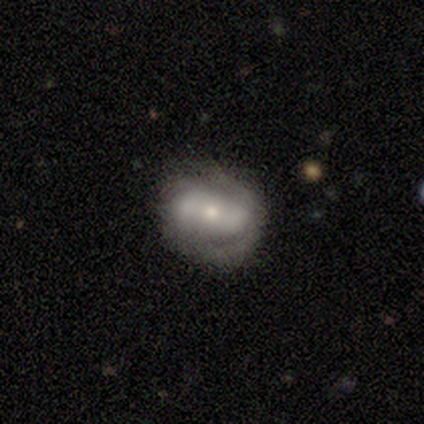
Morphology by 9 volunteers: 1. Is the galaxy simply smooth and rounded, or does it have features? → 89% featured or disk, 11% smooth, 0% star or artifact.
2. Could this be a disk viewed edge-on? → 100% no, 0% yes.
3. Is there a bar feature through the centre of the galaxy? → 62% no, 25% strong, 12% weak.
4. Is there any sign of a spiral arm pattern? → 88% yes, 12% no.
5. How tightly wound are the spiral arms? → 43% medium (tied), 43% loose (tied), 14% tight.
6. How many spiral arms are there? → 71% 2, 14% 3, 14% can't tell, 0% 1, 0% 4, 0% more than 4.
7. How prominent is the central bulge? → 88% moderate, 12% small, 0% dominant, 0% large, 0% none.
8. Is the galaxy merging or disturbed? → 44% none, 22% minor disturbance, 22% merger, 11% major disturbance.